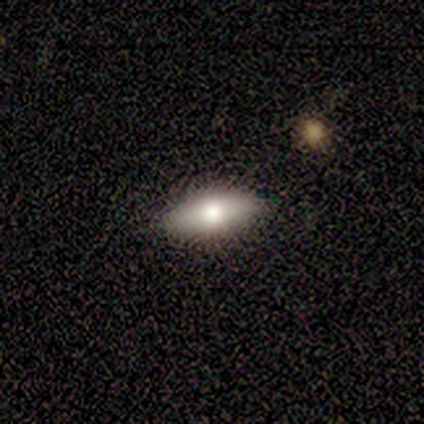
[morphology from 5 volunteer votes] This appears to be a smooth galaxy with no disk features (80%) that is in between round and cigar-shaped (100%). Merging: none (80%).